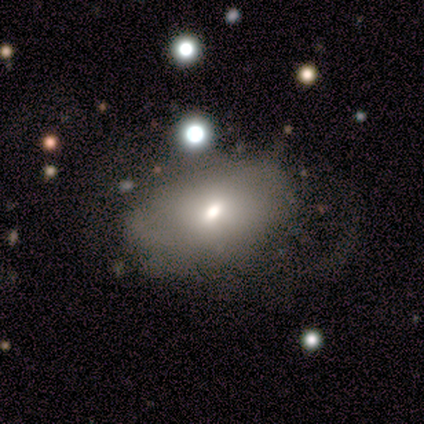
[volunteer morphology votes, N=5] Volunteers were most divided on "smooth or featured": smooth: 60%, featured or disk: 40%, star or artifact: 0%. More confident: how rounded — in between (67%); merging — minor disturbance (60%).